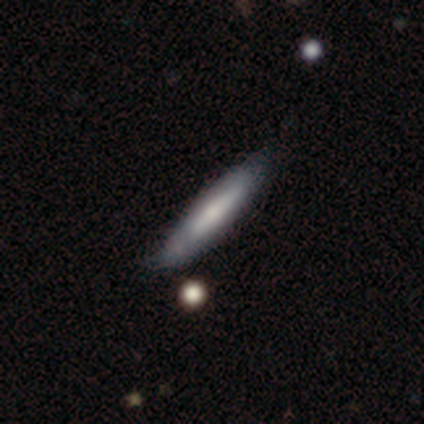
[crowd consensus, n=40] This is likely a smooth galaxy (62%). How rounded: clearly cigar-shaped (88%). Merging: likely none (62%).